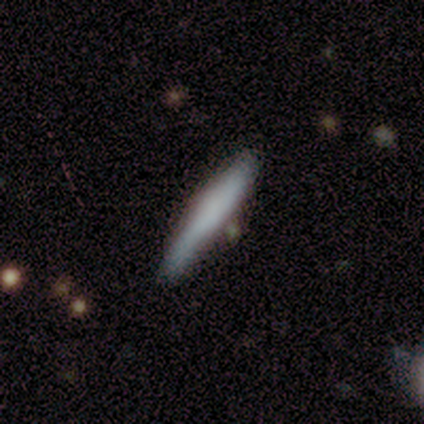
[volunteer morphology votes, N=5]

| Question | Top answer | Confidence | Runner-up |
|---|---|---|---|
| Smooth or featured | smooth | 80% | featured or disk (20%) |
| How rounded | cigar-shaped | 100% | — |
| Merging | none | 60% | minor disturbance (40%) |